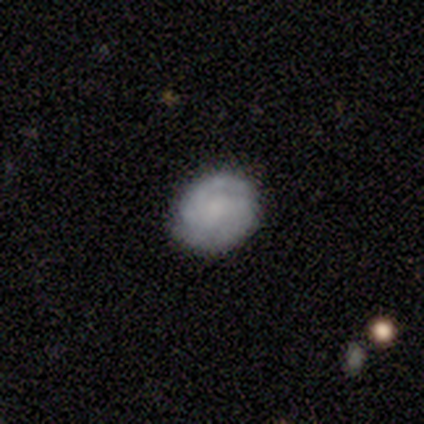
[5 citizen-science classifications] Volunteers were most divided on "smooth or featured": featured or disk: 60%, smooth: 40%, star or artifact: 0%. More confident: edge-on disk — no (100%); spiral arms — yes (100%); merging — none (80%); bar — weak (67%); spiral winding — tight (67%); spiral arm count — 2 (67%); bulge size — none (67%).